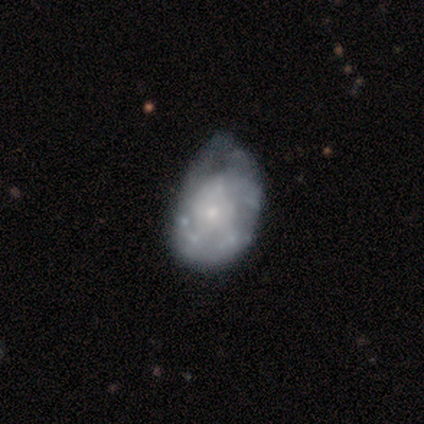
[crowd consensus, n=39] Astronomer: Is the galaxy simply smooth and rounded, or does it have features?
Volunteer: featured or disk — 77%.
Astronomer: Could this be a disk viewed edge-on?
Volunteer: no — 100%.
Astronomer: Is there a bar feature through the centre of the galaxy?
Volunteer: no — 97%.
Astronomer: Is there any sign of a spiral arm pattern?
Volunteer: no — 57% (runner-up: yes, 43%).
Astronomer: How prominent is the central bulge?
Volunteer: small — 63%.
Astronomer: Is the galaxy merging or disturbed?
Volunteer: minor disturbance — 37% (runner-up: none, 18%).